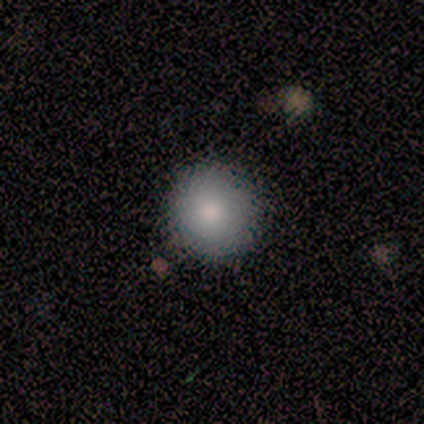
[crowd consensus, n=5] smooth_or_featured: smooth (p=0.80) [alt: featured or disk p=0.20]
how_rounded: round (p=1.00)
merging: none (p=1.00)